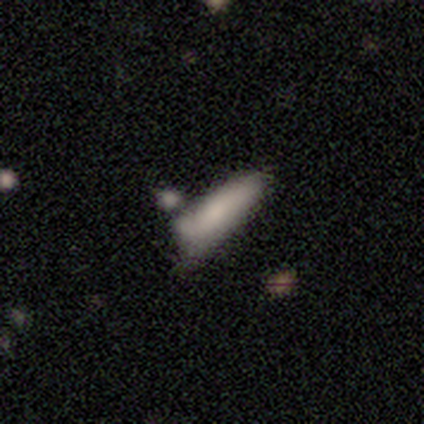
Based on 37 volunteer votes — This is likely a smooth galaxy (68%). How rounded: possibly cigar-shaped (52%). Merging: marginally minor disturbance (34%).